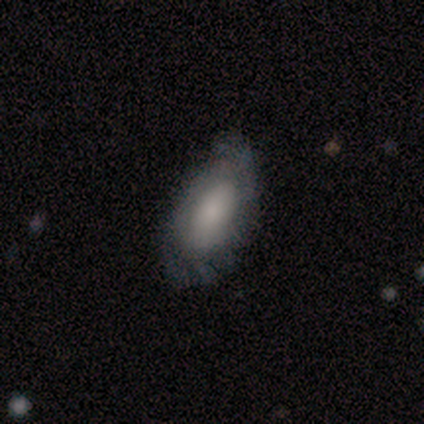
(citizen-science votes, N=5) Morphology: type=smooth (100%); roundness=in between (100%); merging=none (60%).